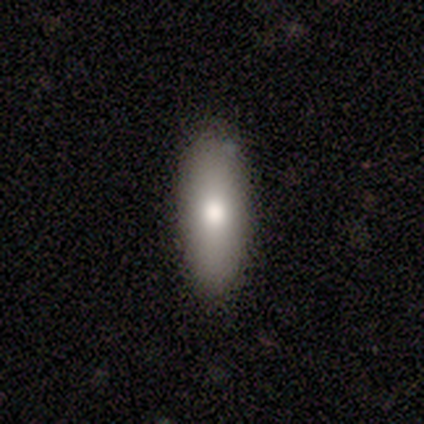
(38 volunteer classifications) Morphology: type=smooth (84%); roundness=in between (53%); merging=none (83%).